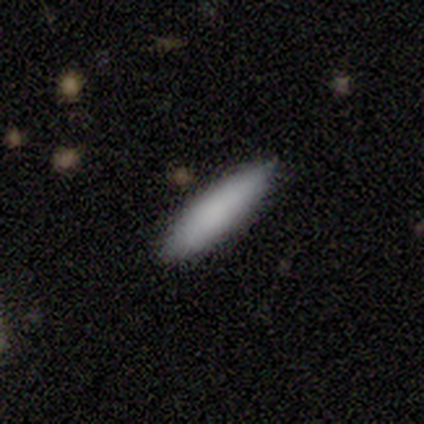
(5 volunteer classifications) A smooth galaxy with no disk features (100%) that is in between round and cigar-shaped (60%).

Vote fractions:
- Smooth or featured? smooth: 100% / featured or disk: 0% / star or artifact: 0%
- How rounded? in between: 60% / cigar-shaped: 40% / round: 0%
- Merging? none: 80% / minor disturbance: 20% / major disturbance: 0% / merger: 0%